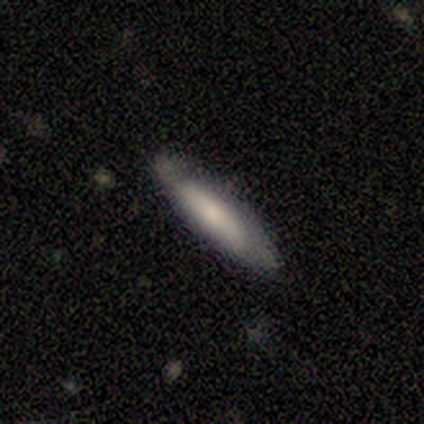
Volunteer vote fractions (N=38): Smooth or featured? 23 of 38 (61%) said smooth. How rounded? 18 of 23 (78%) said cigar-shaped. Merging? 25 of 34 (74%) said none.